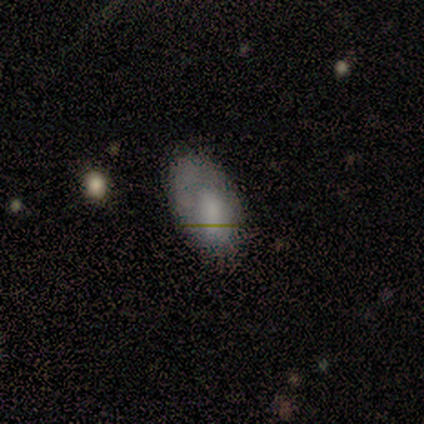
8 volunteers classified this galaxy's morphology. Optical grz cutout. It shows a smooth galaxy with no disk features (62%) that is in between round and cigar-shaped (100%). Merging: none (88%).